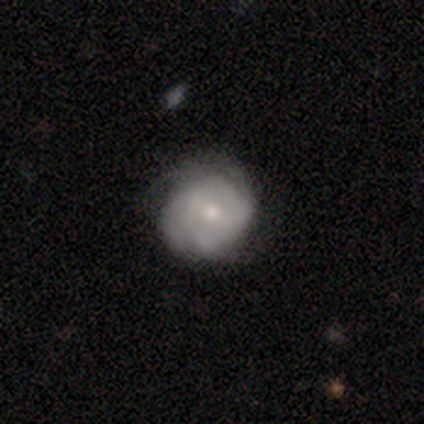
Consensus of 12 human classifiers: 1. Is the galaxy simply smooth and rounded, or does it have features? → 83% featured or disk, 17% smooth, 0% star or artifact.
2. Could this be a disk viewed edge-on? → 100% no, 0% yes.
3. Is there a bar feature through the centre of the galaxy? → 70% no, 20% weak, 10% strong.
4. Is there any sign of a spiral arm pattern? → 50% yes (tied), 50% no (tied).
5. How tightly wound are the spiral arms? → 80% tight, 20% loose, 0% medium.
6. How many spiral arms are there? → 40% 2, 20% 3, 20% 4, 20% can't tell, 0% 1, 0% more than 4.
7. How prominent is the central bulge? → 70% moderate, 30% small, 0% dominant, 0% large, 0% none.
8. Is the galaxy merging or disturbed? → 75% none, 17% minor disturbance, 8% major disturbance, 0% merger.